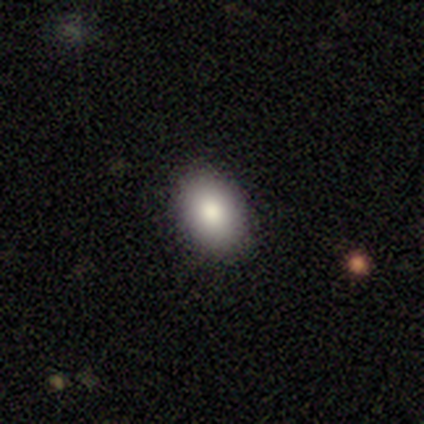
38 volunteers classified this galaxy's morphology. This appears to be a smooth galaxy with no disk features (95%) that is in between round and cigar-shaped (86%). Merging: none (89%).